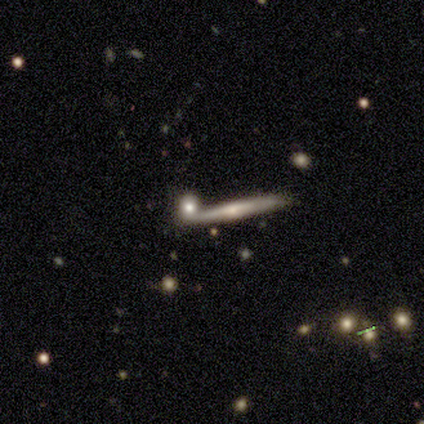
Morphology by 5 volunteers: A smooth galaxy with no disk features (40%, tied with featured or disk) that is cigar-shaped (100%). Merging: none (100%).